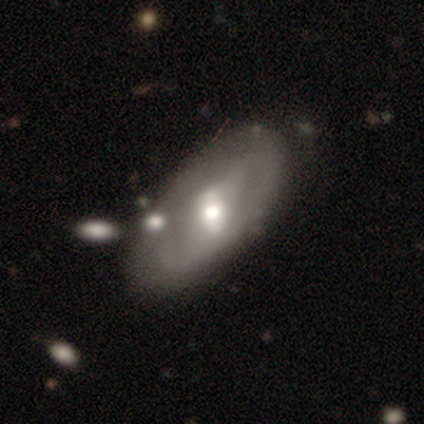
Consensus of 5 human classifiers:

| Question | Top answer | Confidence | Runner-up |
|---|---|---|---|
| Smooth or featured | featured or disk | 60% | smooth (40%) |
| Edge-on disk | no | 100% | — |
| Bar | strong | 67% | no (33%) |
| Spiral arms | yes | 100% | — |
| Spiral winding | loose | 100% | — |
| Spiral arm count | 2 | 100% | — |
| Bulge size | moderate | 67% | large (33%) |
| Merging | none | 60% | minor disturbance (20%) |